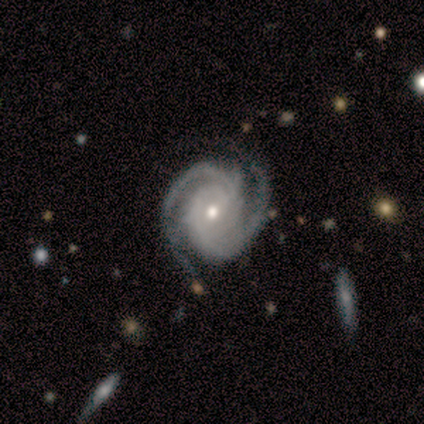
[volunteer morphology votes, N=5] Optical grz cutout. It shows a featured or disk galaxy (100%) with no bar (80%), 2 (40%, tied with 3) tight (100%) spiral arms (100%) and a small central bulge (60%). Merging: none (80%).